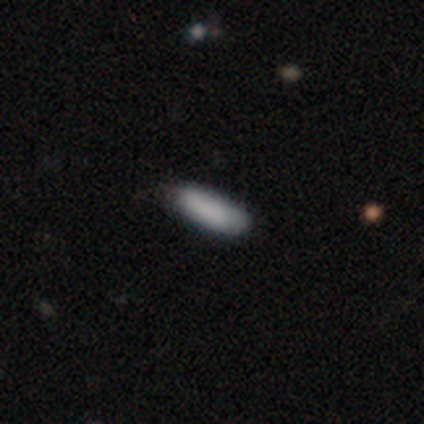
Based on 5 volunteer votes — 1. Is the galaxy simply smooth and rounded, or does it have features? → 80% smooth, 20% featured or disk, 0% star or artifact.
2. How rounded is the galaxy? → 75% in between, 25% cigar-shaped, 0% round.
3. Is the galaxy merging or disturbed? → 60% none, 20% minor disturbance, 20% merger, 0% major disturbance.